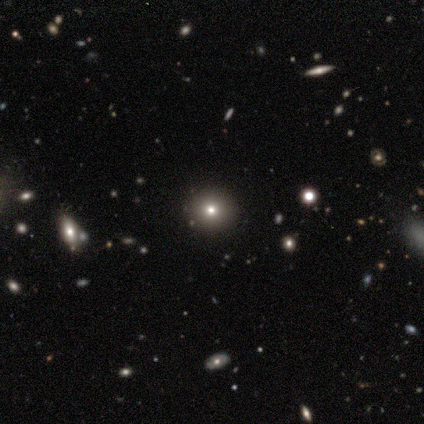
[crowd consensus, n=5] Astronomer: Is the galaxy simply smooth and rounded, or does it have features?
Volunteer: smooth — 60% (runner-up: featured or disk, 40%).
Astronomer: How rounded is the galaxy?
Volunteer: round — 100%.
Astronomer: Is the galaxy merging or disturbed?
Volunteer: none — 80%.